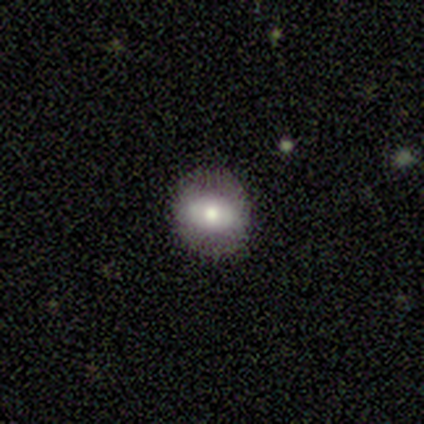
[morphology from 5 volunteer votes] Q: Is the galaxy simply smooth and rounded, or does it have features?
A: smooth — 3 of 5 (60%).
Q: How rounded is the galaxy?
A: in between — 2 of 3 (67%).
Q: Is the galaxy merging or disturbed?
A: none — 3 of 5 (60%).